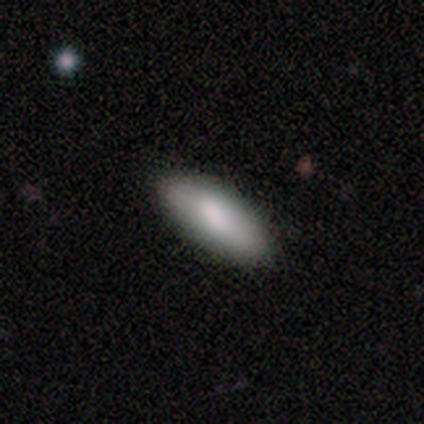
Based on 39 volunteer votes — Smooth or featured?
  - smooth: 90% *
  - featured or disk: 5%
  - star or artifact: 5%
How rounded?
  - in between: 94% *
  - cigar-shaped: 6%
  - round: 0%
Merging?
  - none: 59% *
  - minor disturbance: 3%
  - merger: 3%
  - major disturbance: 0%